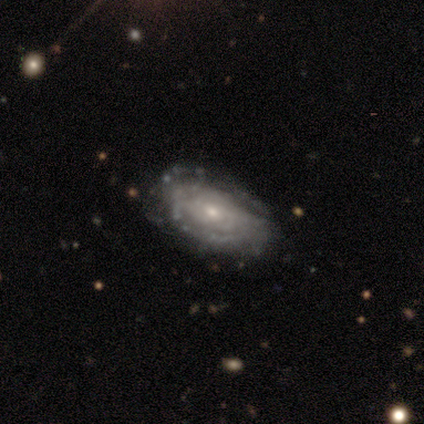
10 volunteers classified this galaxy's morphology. Q: Smooth or featured?
A: featured or disk (80%); runner-up: smooth (20%)
Q: Edge-on disk?
A: no (100%)
Q: Bar?
A: no (88%); runner-up: weak (12%)
Q: Spiral arms?
A: yes (62%); runner-up: no (38%)
Q: Spiral winding?
A: tight (100%)
Q: Spiral arm count?
A: can't tell (100%)
Q: Bulge size?
A: small (75%); runner-up: moderate (25%)
Q: Merging?
A: none (70%); runner-up: minor disturbance (30%)